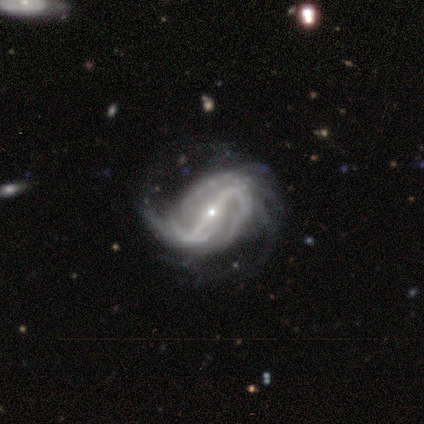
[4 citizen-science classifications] Volunteers were most divided on "spiral winding" (3-way tie): tight: 33%, medium: 33%, loose: 33%. More confident: edge-on disk — no (100%); bar — strong (100%); spiral arms — yes (100%); bulge size — small (100%); smooth or featured — featured or disk (75%); spiral arm count — 2 (67%); merging — minor disturbance (67%).